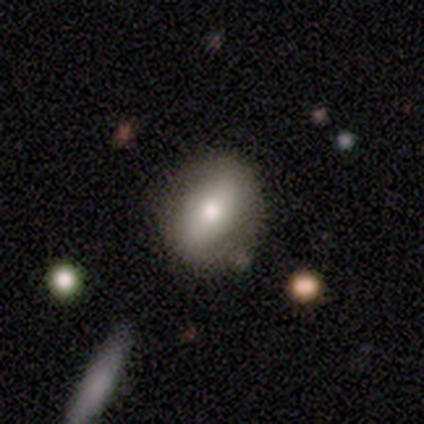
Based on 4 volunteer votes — featured or disk 75%, smooth 25%, star or artifact 0%. Down the decision tree: edge-on disk — no (67%); bar — strong (50%, tied with no); spiral arms — no (100%); bulge size — moderate (100%); merging — none (100%).